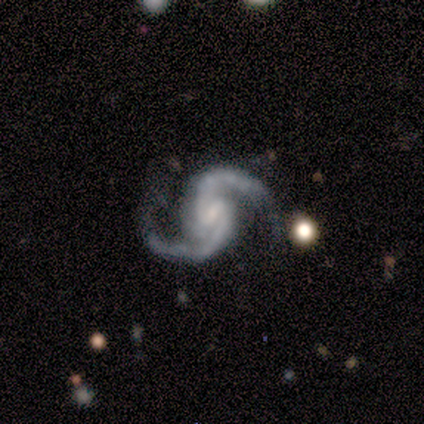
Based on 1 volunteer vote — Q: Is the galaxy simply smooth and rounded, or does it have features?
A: featured or disk — 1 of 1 (100%).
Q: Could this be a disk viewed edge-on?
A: no — 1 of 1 (100%).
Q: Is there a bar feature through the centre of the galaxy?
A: weak — 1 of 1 (100%).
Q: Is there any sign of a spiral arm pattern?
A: yes — 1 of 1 (100%).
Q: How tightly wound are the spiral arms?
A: medium — 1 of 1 (100%).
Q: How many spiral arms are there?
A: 2 — 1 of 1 (100%).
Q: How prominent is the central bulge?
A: small — 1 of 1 (100%).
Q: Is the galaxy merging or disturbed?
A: major disturbance — 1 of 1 (100%).